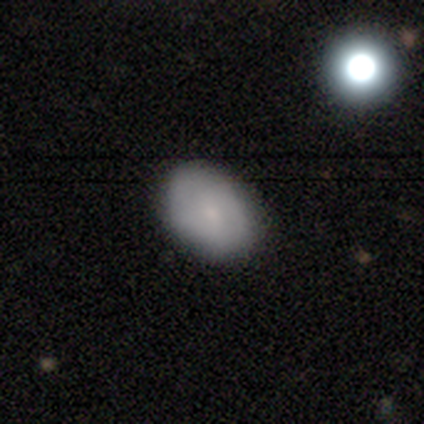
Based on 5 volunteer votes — Q: Smooth or featured?
A: smooth (80%); runner-up: featured or disk (20%)
Q: How rounded?
A: in between (75%); runner-up: round (25%)
Q: Merging?
A: none (100%)